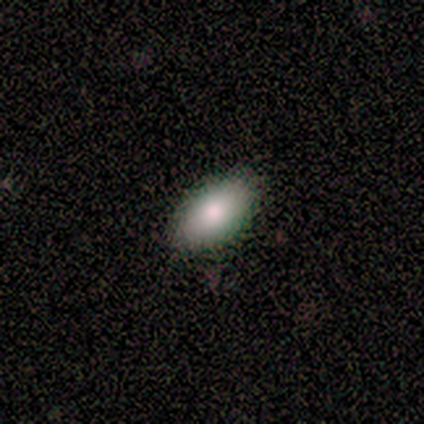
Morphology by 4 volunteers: smooth_or_featured: smooth (p=1.00)
how_rounded: in between (p=0.75) [alt: round p=0.25]
merging: none (p=1.00)